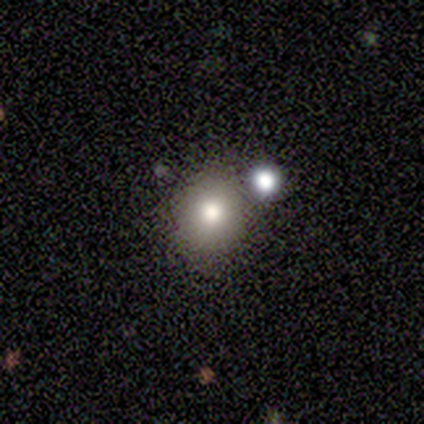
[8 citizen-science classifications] A smooth galaxy with no disk features (62%) that is round (80%).

Vote fractions:
- Smooth or featured? smooth: 62% / star or artifact: 25% / featured or disk: 12%
- How rounded? round: 80% / in between: 20% / cigar-shaped: 0%
- Merging? none: 67% / minor disturbance: 17% / major disturbance: 17% / merger: 0%